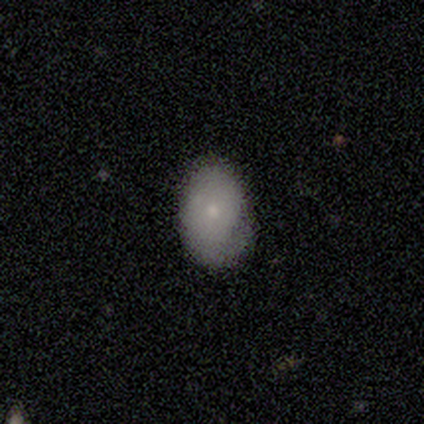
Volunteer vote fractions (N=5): This appears to be a smooth galaxy with no disk features (100%) that is in between round and cigar-shaped (80%). Merging: none (40%, tied with minor disturbance).